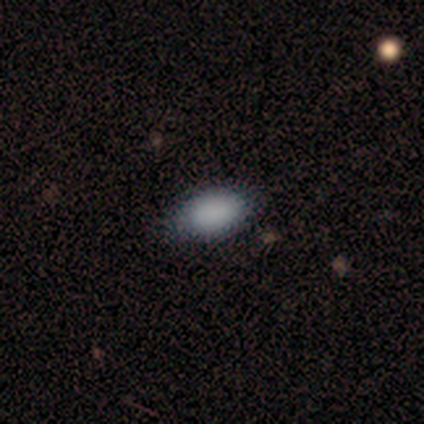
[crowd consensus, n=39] smooth_or_featured: smooth (p=0.79) [alt: featured or disk p=0.10]
how_rounded: in between (p=0.81) [alt: round p=0.10]
merging: none (p=0.83) [alt: minor disturbance p=0.14]